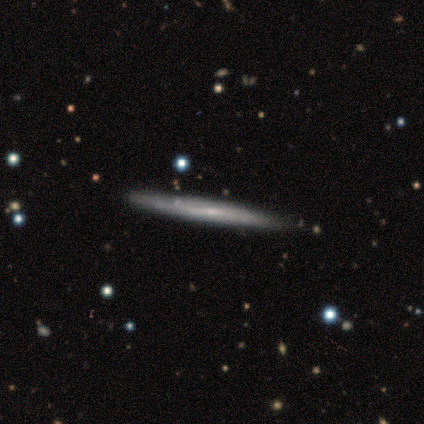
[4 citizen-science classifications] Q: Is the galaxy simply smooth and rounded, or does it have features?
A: smooth — 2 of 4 (50%, tied with featured or disk).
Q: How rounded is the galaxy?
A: cigar-shaped — 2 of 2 (100%).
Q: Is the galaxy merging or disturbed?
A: none — 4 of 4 (100%).